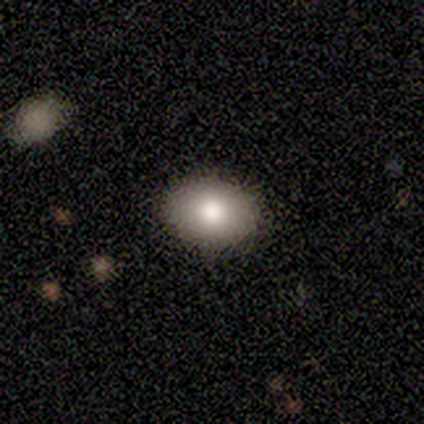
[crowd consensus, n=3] This is clearly a smooth galaxy (100%). How rounded: clearly round (100%). Merging: clearly none (100%).